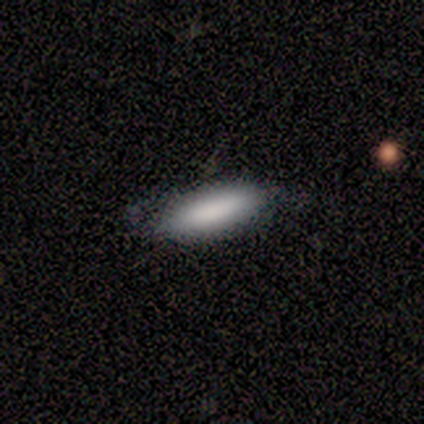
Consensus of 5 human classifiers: Volunteers were most divided on "how rounded": cigar-shaped: 75%, in between: 25%, round: 0%. More confident: smooth or featured — smooth (80%); merging — none (75%).